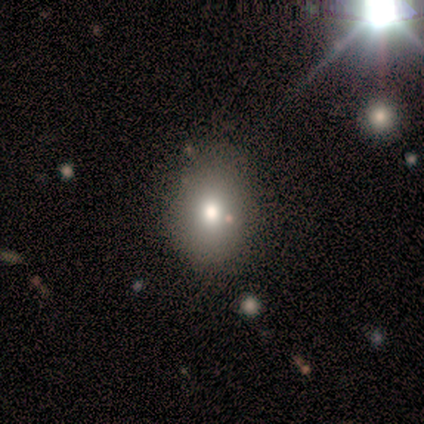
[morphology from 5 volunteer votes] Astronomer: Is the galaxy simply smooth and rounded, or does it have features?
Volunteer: smooth — 60%.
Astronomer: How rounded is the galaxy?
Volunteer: in between — 67%.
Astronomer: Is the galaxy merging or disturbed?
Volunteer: minor disturbance — 50%.